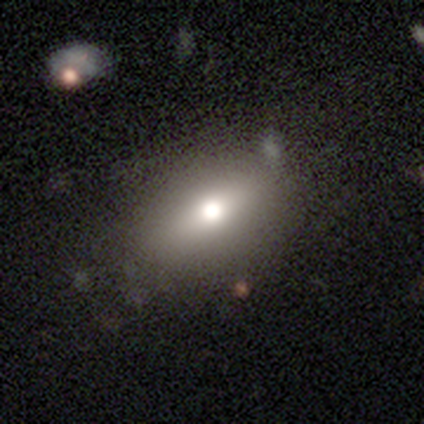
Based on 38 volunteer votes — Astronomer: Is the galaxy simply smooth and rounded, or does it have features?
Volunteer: smooth — 66%.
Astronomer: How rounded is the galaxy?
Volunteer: in between — 80%.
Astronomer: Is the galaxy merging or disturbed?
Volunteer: none — 73%.